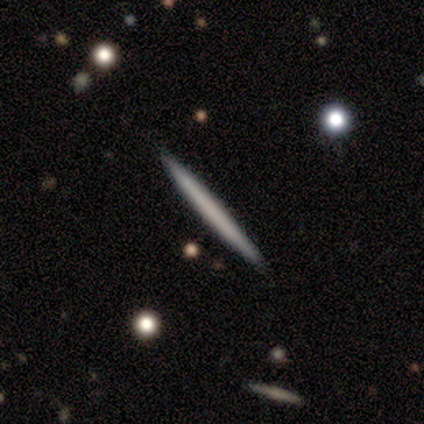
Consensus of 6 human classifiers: Q: Smooth or featured?
A: featured or disk (67%); runner-up: smooth (33%)
Q: Edge-on disk?
A: yes (100%)
Q: Edge-on bulge?
A: none (100%)
Q: Merging?
A: none (83%); runner-up: minor disturbance (17%)